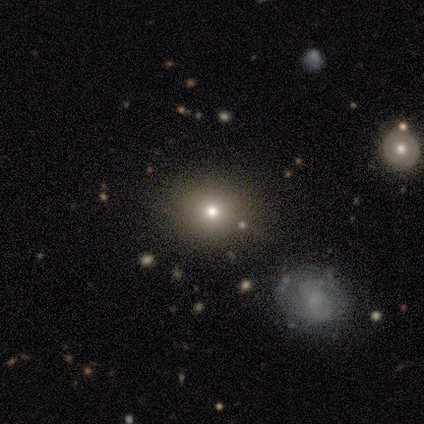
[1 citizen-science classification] This appears to be a smooth galaxy with no disk features (100%) that is round (100%). Merging: none (100%).